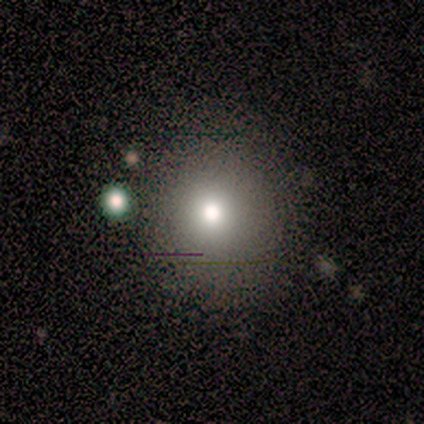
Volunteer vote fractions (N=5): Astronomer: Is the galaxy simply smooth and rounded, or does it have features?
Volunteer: smooth — 80%.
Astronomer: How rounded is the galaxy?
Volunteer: round — 75%.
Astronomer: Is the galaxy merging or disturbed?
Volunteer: none — 100%.